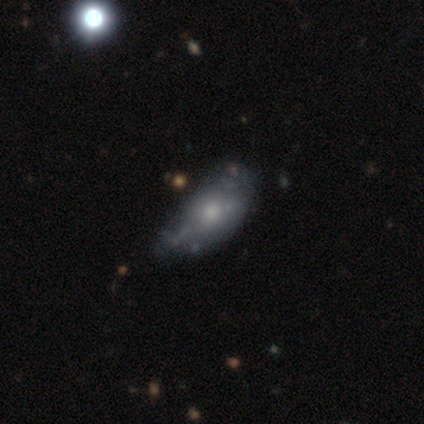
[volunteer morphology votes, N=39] Q: Smooth or featured?
A: smooth (49%); runner-up: featured or disk (44%)
Q: How rounded?
A: in between (89%); runner-up: round (5%)
Q: Merging?
A: none (39%); tied with: minor disturbance (39%)